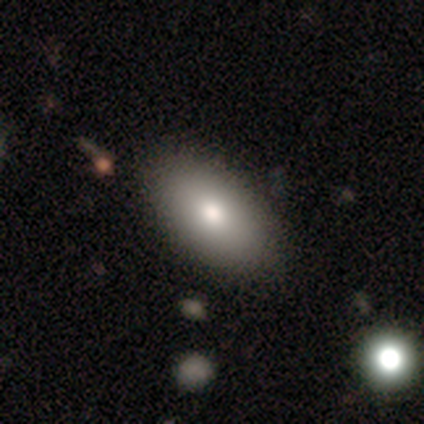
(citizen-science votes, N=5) Smooth or featured? smooth (100%)
How rounded? in between (100%)
Merging? none (100%)